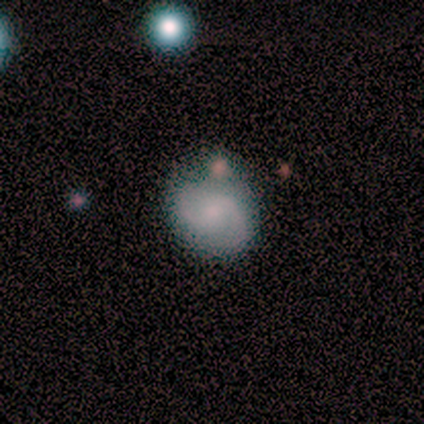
Overall: featured or disk (59%; smooth 30%). Edge-on disk: no (100%). Bar: weak (55%; no 36%). Spiral arms: yes (97%). Spiral arm count: 2 (97%). Spiral winding: medium (59%; loose 31%). Bulge size: small (48%; moderate 36%). Merging: none (68%).